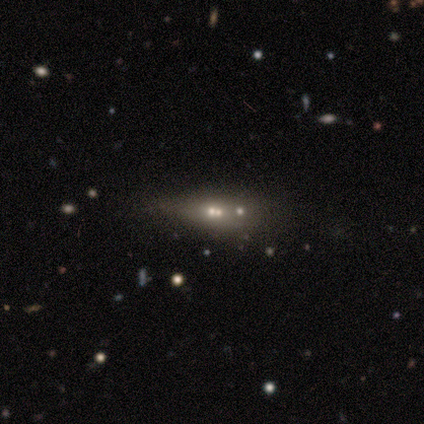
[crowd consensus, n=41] Volunteers were most divided on "merging": merger: 41%, minor disturbance: 34%, none: 17%, major disturbance: 7%. Remaining: bar — no (100%); spiral arms — no (100%); edge-on disk — no (88%); bulge size — small (67%); smooth or featured — featured or disk (41%).